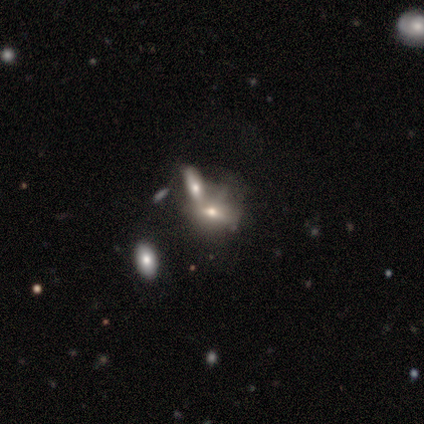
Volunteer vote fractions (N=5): Smooth or featured? 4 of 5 (80%) said featured or disk. Edge-on disk? 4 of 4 (100%) said no. Bar? 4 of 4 (100%) said no. Spiral arms? 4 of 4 (100%) said no. Bulge size? 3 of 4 (75%) said small. Merging? 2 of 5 (40%) said none.